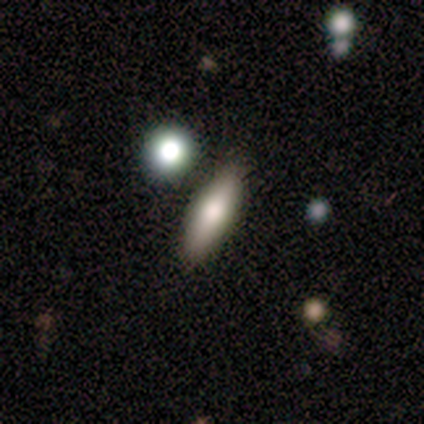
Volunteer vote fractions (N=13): Smooth or featured: smooth — 77% (featured or disk — 15%)
How rounded: in between — 70% (cigar-shaped — 30%)
Merging: none — 75% (minor disturbance — 25%)